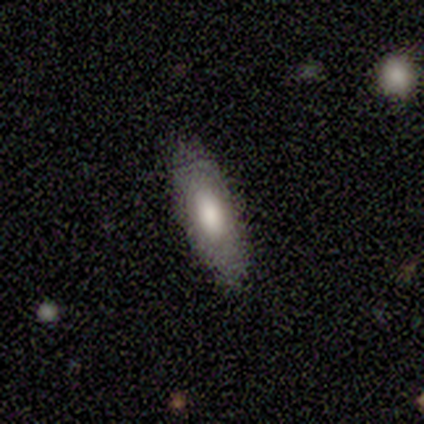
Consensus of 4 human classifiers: smooth_or_featured: smooth (p=0.75) [alt: featured or disk p=0.25]
how_rounded: in between (p=0.67) [alt: cigar-shaped p=0.33]
merging: none (p=0.75) [alt: minor disturbance p=0.25]